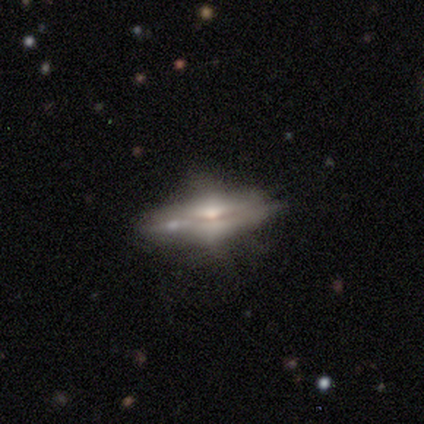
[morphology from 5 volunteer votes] This appears to be a featured or disk galaxy (60%) with no bar (100%), no spiral arms (100%) and a moderate central bulge (50%, tied with small). Merging: none (60%).